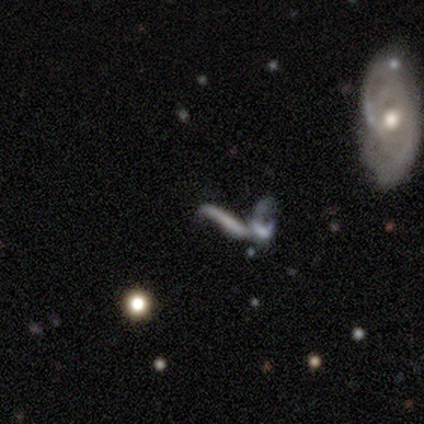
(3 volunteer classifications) smooth 67%, featured or disk 33%, star or artifact 0%. Down the decision tree: how rounded — cigar-shaped (100%); merging — merger (67%).